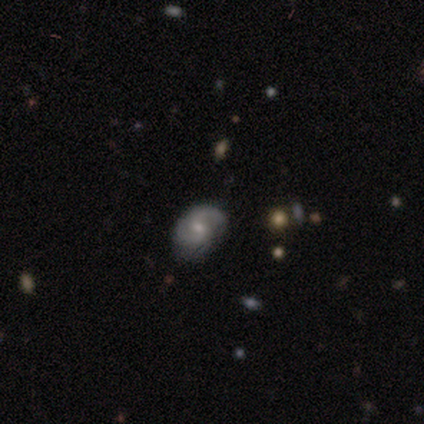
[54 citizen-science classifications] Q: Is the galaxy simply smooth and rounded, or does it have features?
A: featured or disk — 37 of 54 (69%).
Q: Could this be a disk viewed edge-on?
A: no — 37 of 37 (100%).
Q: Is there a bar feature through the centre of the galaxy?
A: no — 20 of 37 (54%).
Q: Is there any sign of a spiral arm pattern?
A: yes — 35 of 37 (95%).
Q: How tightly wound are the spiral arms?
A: medium — 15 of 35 (43%).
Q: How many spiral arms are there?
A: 2 — 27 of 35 (77%).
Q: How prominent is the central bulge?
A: moderate — 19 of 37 (51%).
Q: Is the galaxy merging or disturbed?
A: none — 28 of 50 (56%).